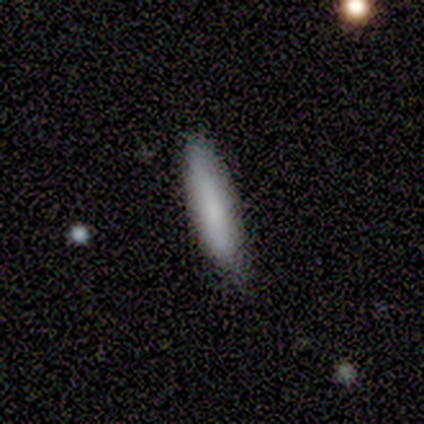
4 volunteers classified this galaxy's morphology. Q: Smooth or featured?
A: smooth (100%)
Q: How rounded?
A: cigar-shaped (100%)
Q: Merging?
A: none (75%); runner-up: minor disturbance (25%)